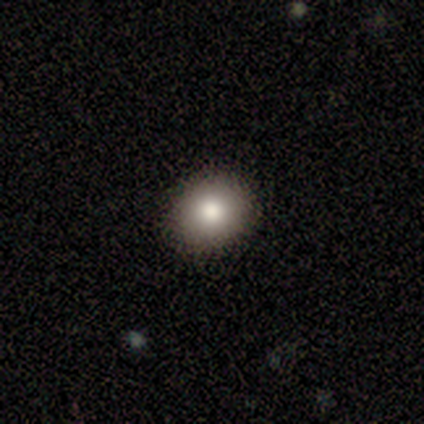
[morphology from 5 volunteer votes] This is clearly a smooth galaxy (80%). How rounded: likely round (75%). Merging: clearly none (100%).